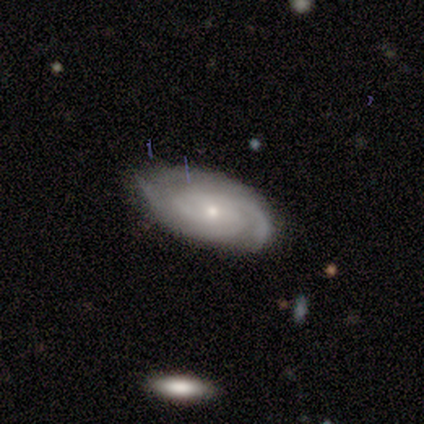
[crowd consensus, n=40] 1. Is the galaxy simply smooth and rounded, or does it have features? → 82% featured or disk, 12% smooth, 5% star or artifact.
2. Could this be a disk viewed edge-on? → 94% no, 6% yes.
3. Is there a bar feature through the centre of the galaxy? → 74% no, 19% weak, 6% strong.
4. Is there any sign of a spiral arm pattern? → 97% yes, 3% no.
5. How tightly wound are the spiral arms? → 60% tight, 33% medium, 7% loose.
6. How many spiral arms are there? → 43% 2, 33% 3, 17% can't tell, 3% 1, 3% 4, 0% more than 4.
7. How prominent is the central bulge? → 77% small, 23% moderate, 0% dominant, 0% large, 0% none.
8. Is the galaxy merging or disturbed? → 68% none, 26% minor disturbance, 3% major disturbance, 3% merger.